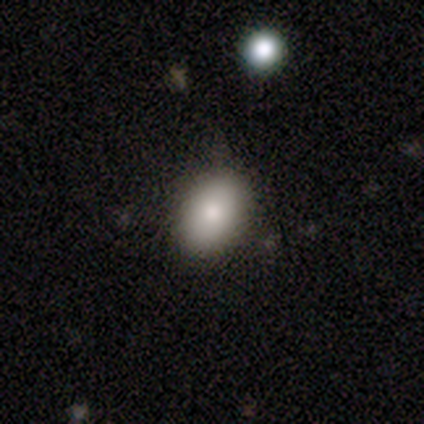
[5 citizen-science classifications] A smooth galaxy with no disk features (100%) that is in between round and cigar-shaped (100%). Merging: none (80%).